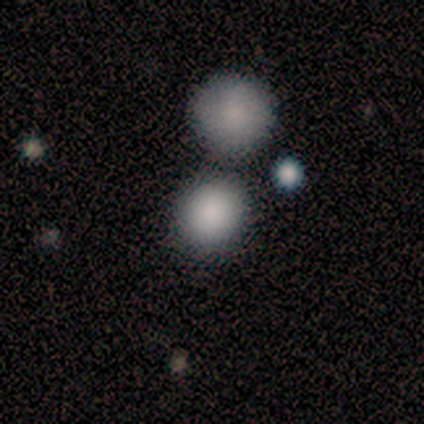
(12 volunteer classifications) Smooth or featured?
  - smooth: 100% *
  - featured or disk: 0%
  - star or artifact: 0%
How rounded?
  - round: 92% *
  - in between: 8%
  - cigar-shaped: 0%
Merging?
  - none: 67% *
  - merger: 17%
  - minor disturbance: 8%
  - major disturbance: 8%